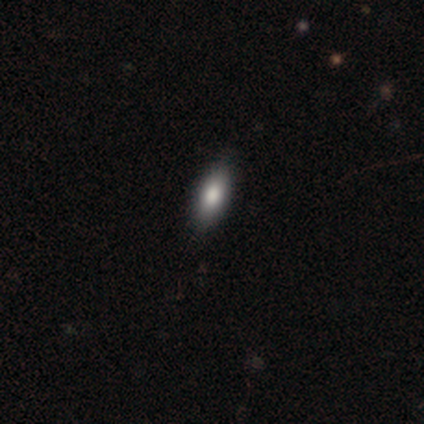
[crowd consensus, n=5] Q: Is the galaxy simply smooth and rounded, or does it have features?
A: smooth — 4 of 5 (80%).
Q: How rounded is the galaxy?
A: in between — 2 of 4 (50%, tied with cigar-shaped).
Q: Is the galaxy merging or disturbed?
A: none — 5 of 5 (100%).